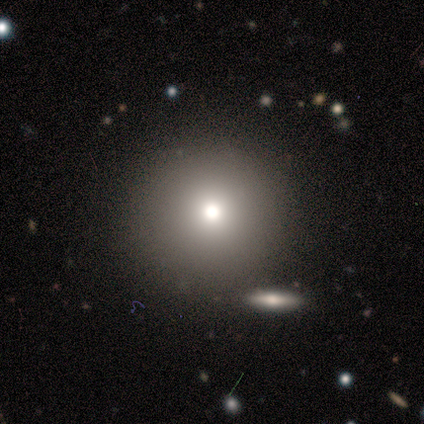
Q: Smooth or featured?
A: smooth (69%); runner-up: star or artifact (18%)
Q: How rounded?
A: round (100%)
Q: Merging?
A: none (84%); runner-up: merger (9%)